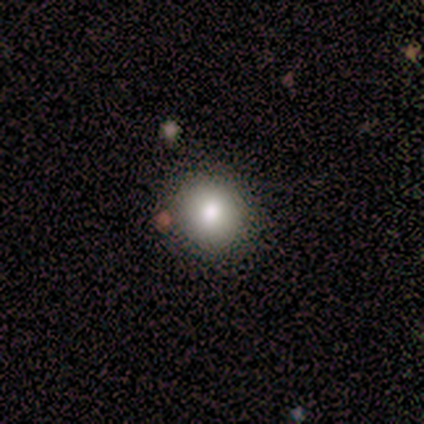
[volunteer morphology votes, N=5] smooth-or-featured: smooth: 80% | featured or disk: 20% | star or artifact: 0%
  how-rounded: round: 75% | in between: 25% | cigar-shaped: 0%
  merging: none: 60% | major disturbance: 20% | merger: 20% | minor disturbance: 0%